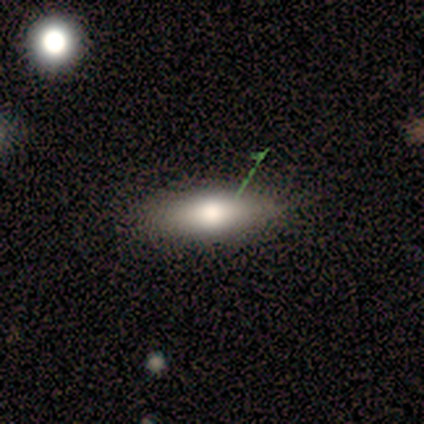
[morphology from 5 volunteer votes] featured or disk 60%, smooth 40%, star or artifact 0%. Down the decision tree: edge-on disk — yes (67%); edge-on bulge — rounded (100%); merging — none (80%).